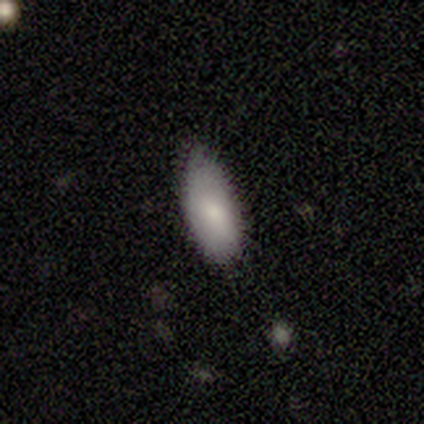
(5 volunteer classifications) This appears to be a smooth galaxy with no disk features (100%) that is in between round and cigar-shaped (100%). Merging: none (80%).